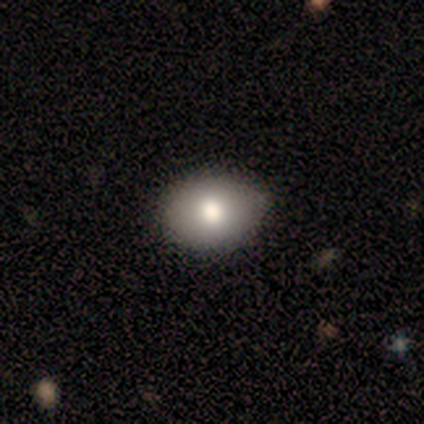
Smooth or featured: smooth — 100%
How rounded: in between — 100%
Merging: none — 80% (minor disturbance — 20%)